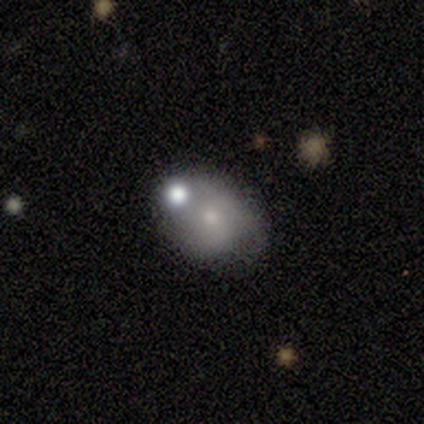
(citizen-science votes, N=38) Smooth or featured: smooth — 68% (featured or disk — 32%)
How rounded: in between — 73% (round — 27%)
Merging: none — 58% (minor disturbance — 18%)